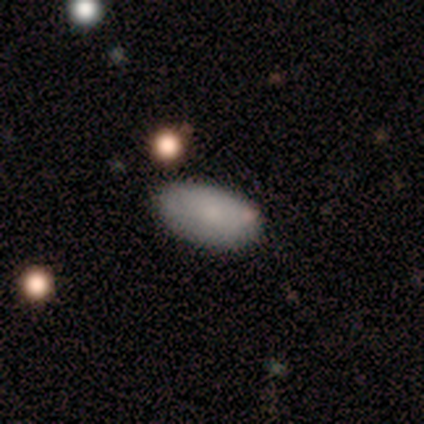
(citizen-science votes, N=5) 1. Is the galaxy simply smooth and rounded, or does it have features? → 80% smooth, 20% featured or disk, 0% star or artifact.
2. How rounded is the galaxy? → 75% in between, 25% cigar-shaped, 0% round.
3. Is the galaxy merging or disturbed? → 80% none, 20% major disturbance, 0% minor disturbance, 0% merger.